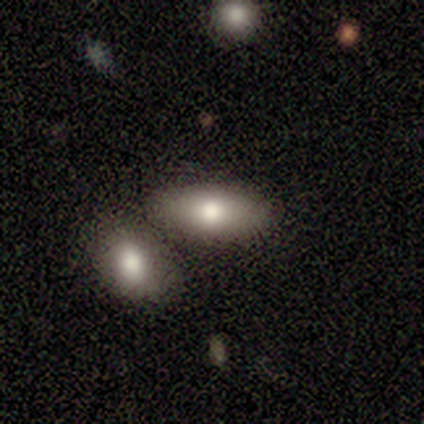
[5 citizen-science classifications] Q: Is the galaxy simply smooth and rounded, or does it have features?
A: smooth — 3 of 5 (60%).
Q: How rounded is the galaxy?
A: in between — 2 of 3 (67%).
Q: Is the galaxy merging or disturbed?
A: none — 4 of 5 (80%).